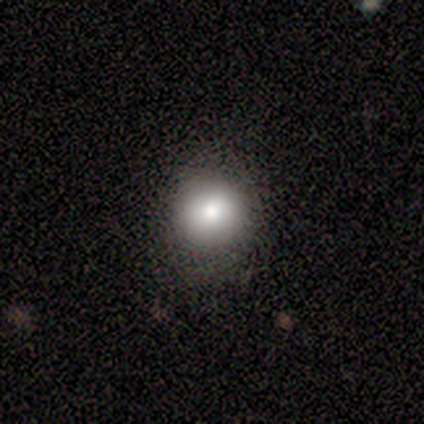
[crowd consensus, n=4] This is likely a smooth galaxy (75%). How rounded: clearly round (100%). Merging: likely none (67%).